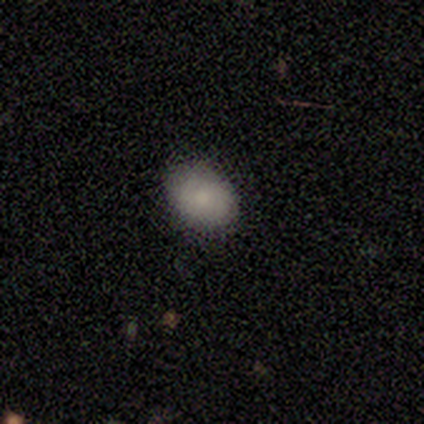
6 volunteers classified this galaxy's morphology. This is likely a smooth galaxy (67%). How rounded: possibly round (50%, tied with in between). Merging: clearly none (80%).